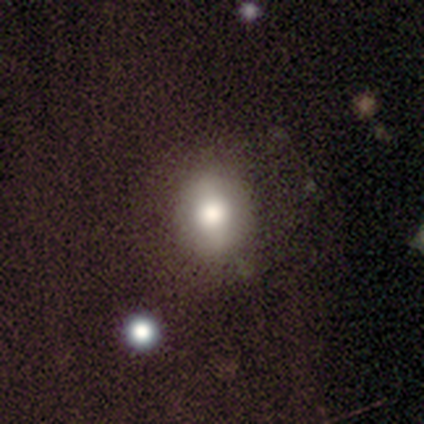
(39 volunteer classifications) This is likely a smooth galaxy (69%). How rounded: likely round (67%). Merging: clearly none (83%).